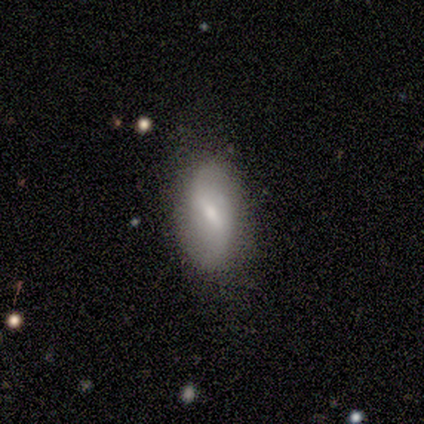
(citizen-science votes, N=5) Smooth or featured?
  - smooth: 60% *
  - featured or disk: 40%
  - star or artifact: 0%
How rounded?
  - in between: 100% *
  - round: 0%
  - cigar-shaped: 0%
Merging?
  - none: 100% *
  - minor disturbance: 0%
  - major disturbance: 0%
  - merger: 0%